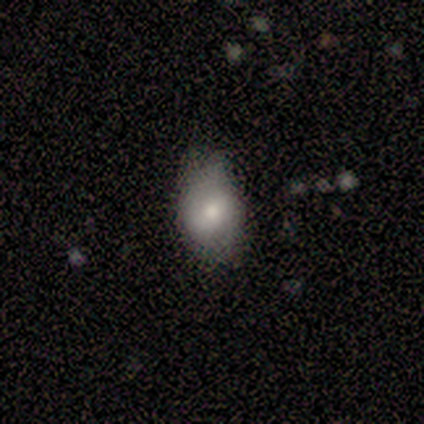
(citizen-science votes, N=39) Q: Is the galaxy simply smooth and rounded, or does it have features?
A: smooth — 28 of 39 (72%).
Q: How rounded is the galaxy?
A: in between — 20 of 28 (71%).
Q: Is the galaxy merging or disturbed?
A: none — 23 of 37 (62%).